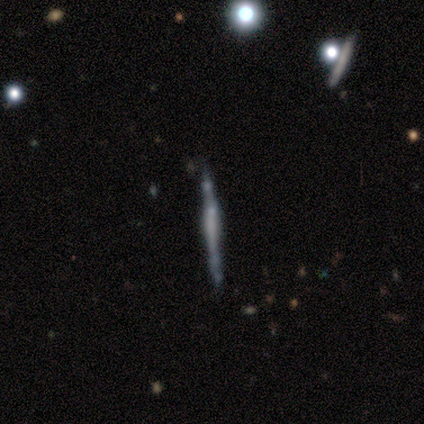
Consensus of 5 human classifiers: Morphology: type=featured or disk (60%); edge-on=yes (100%); edge-on bulge=boxy (67%); merging=none (80%).